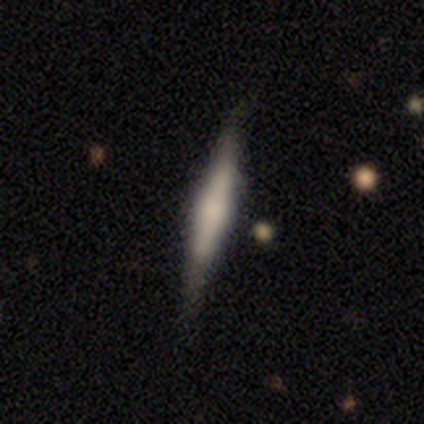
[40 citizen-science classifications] smooth_or_featured: smooth (p=0.50) [tied with: featured or disk p=0.50]
how_rounded: cigar-shaped (p=0.95) [alt: in between p=0.05]
merging: none (p=0.85) [alt: minor disturbance p=0.12]